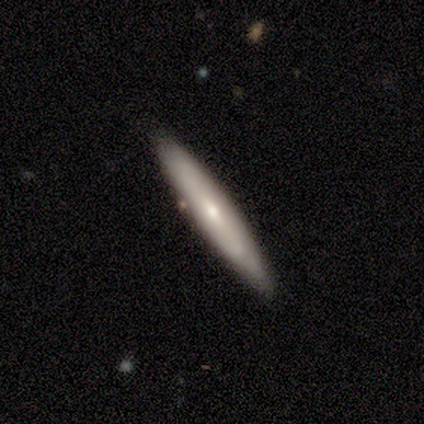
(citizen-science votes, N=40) smooth-or-featured: featured or disk: 50% | smooth: 48% | star or artifact: 2%
  disk-edge-on: yes: 85% | no: 15%
    edge-on-bulge: rounded: 82% | none: 18% | boxy: 0%
  merging: none: 77% | minor disturbance: 21% | merger: 3% | major disturbance: 0%